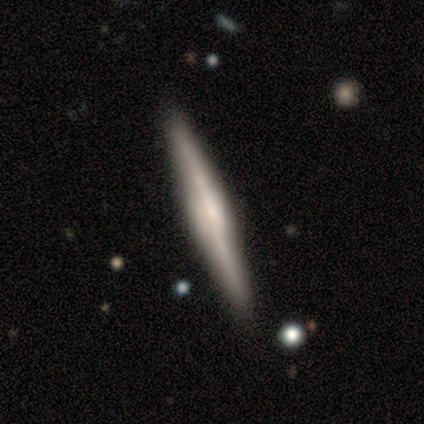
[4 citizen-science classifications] Smooth or featured: featured or disk — 100%
Edge-on disk: yes — 100%
Edge-on bulge: rounded — 75% (none — 25%)
Merging: none — 75% (minor disturbance — 25%)